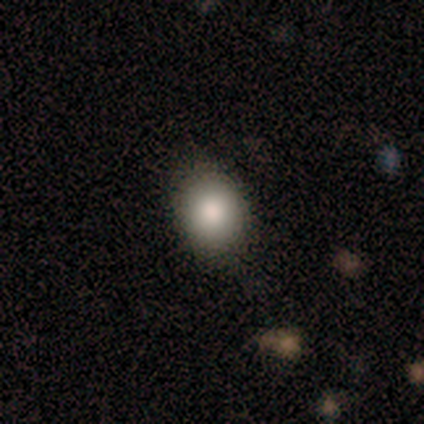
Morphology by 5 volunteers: Smooth or featured: smooth — 100%
How rounded: round — 60% (in between — 40%)
Merging: none — 60% (minor disturbance — 40%)